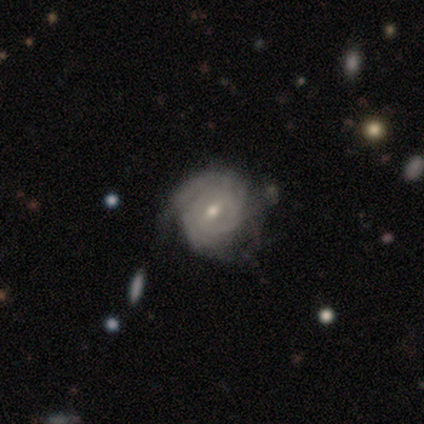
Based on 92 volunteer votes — A featured or disk galaxy (85%) with a weak bar (58%), tight (87%) spiral arms (88%) and a small central bulge (61%). Merging: none (63%).